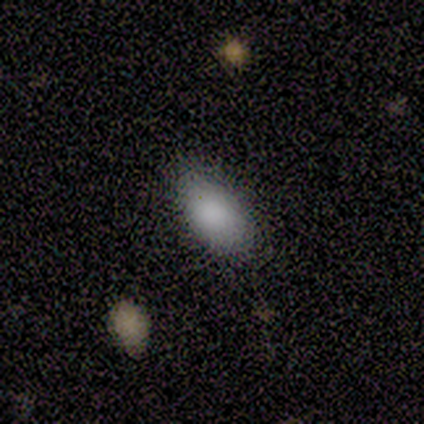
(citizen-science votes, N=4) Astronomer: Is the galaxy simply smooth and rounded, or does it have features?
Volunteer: smooth — 75%.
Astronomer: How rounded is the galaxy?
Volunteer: in between — 100%.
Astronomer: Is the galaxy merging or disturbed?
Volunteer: none — 100%.